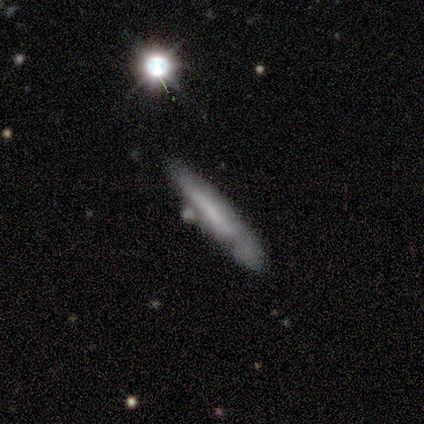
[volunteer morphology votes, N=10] smooth-or-featured: smooth: 50% | featured or disk: 40% | star or artifact: 10%
  how-rounded: cigar-shaped: 100% | round: 0% | in between: 0%
  merging: none: 78% | minor disturbance: 22% | major disturbance: 0% | merger: 0%